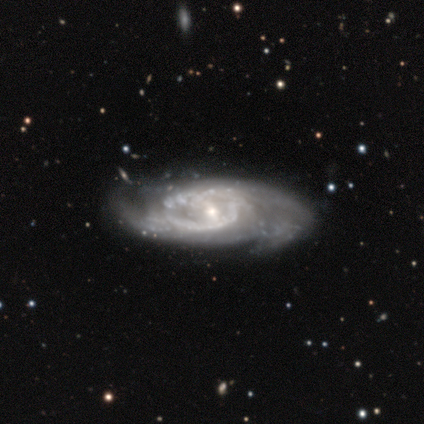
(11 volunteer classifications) Smooth or featured: featured or disk — 100%
Edge-on disk: no — 100%
Bar: weak — 55% (no — 27%)
Spiral arms: yes — 100%
Spiral winding: tight — 45% (tied with medium — 45%)
Spiral arm count: can't tell — 55% (2 — 36%)
Bulge size: small — 55% (moderate — 45%)
Merging: none — 91% (minor disturbance — 9%)